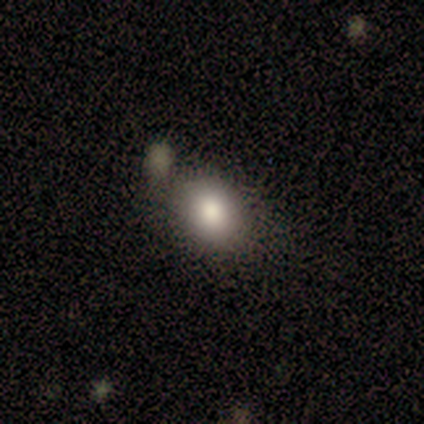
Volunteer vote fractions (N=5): A smooth galaxy with no disk features (100%) that is in between round and cigar-shaped (60%).

Vote fractions:
- Smooth or featured? smooth: 100% / featured or disk: 0% / star or artifact: 0%
- How rounded? in between: 60% / round: 40% / cigar-shaped: 0%
- Merging? none: 60% / minor disturbance: 20% / major disturbance: 20% / merger: 0%